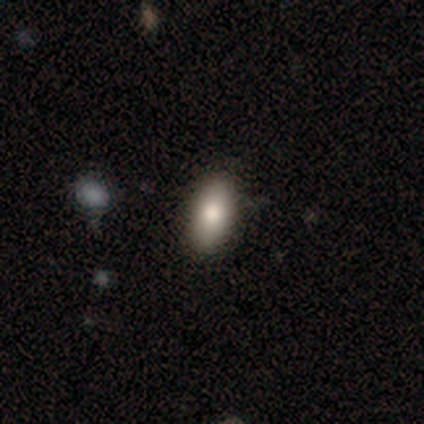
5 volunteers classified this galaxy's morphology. Volunteers were most divided on "how rounded": in between: 60%, round: 20%, cigar-shaped: 20%. More confident: smooth or featured — smooth (100%); merging — none (80%).